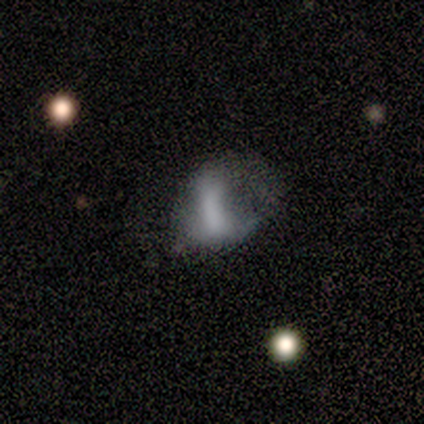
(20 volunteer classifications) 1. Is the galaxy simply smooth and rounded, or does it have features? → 35% smooth (tied), 35% featured or disk (tied), 30% star or artifact.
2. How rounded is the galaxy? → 100% in between, 0% round, 0% cigar-shaped.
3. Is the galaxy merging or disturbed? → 79% major disturbance, 14% minor disturbance, 7% merger, 0% none.